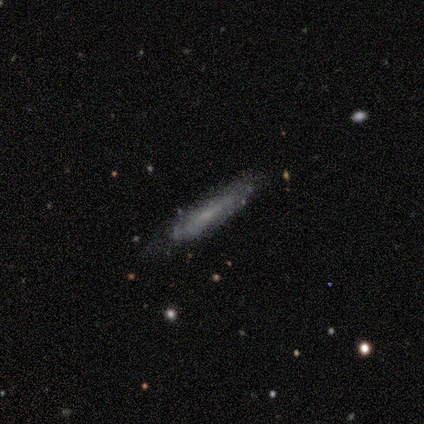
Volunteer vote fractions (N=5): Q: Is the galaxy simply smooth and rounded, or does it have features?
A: featured or disk — 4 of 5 (80%).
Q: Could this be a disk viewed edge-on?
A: yes — 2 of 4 (50%, tied with no).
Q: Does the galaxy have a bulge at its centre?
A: none — 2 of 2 (100%).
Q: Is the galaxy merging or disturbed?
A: none — 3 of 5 (60%).